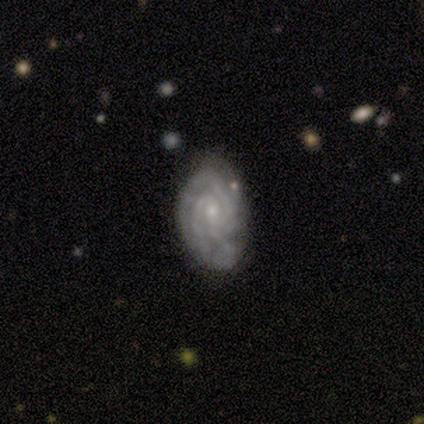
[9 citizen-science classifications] Smooth or featured: featured or disk — 89% (star or artifact — 11%)
Edge-on disk: no — 100%
Bar: weak — 50% (tied with no — 50%)
Spiral arms: yes — 100%
Spiral winding: tight — 100%
Spiral arm count: can't tell — 38% (2 — 25%)
Bulge size: small — 75% (moderate — 12%)
Merging: none — 88% (major disturbance — 12%)